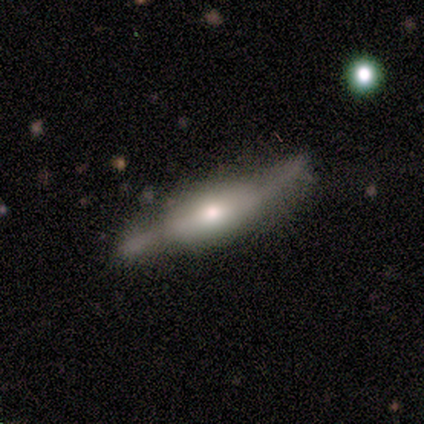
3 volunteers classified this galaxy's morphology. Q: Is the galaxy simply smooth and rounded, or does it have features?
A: featured or disk — 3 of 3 (100%).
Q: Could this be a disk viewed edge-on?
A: yes — 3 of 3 (100%).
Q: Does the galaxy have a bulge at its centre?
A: rounded — 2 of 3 (67%).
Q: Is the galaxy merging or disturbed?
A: none — 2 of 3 (67%).